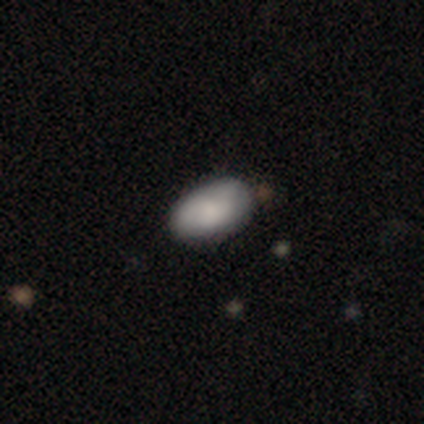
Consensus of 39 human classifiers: This is clearly a smooth galaxy (85%). How rounded: clearly in between (100%). Merging: likely none (68%).